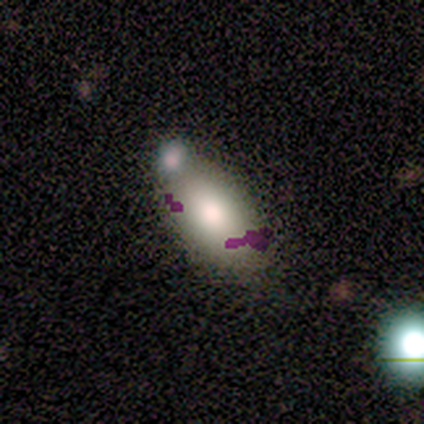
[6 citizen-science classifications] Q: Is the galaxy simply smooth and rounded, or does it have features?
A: smooth — 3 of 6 (50%).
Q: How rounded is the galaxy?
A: in between — 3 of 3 (100%).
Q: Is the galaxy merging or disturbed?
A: none — 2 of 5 (40%).